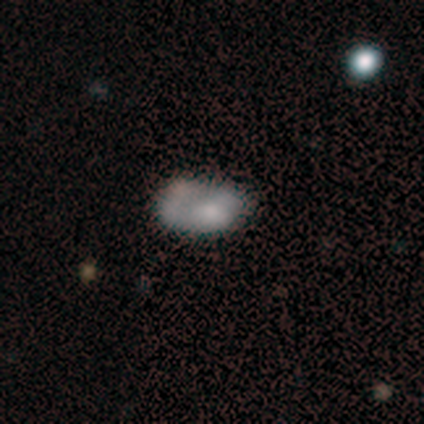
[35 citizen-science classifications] smooth 51%, featured or disk 46%, star or artifact 3%. Down the decision tree: how rounded — in between (83%); merging — none (44%).